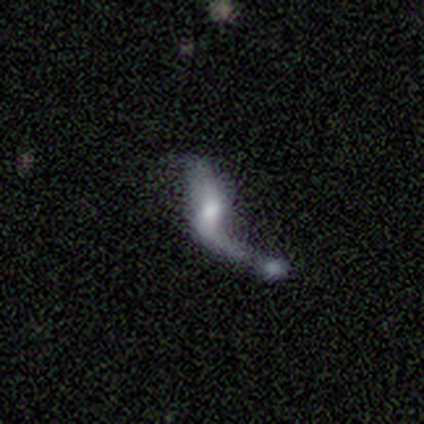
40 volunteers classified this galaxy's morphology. This is likely a featured or disk galaxy (65%). It is clearly not viewed edge-on (100%). Bar: possibly weak (46%, tied with no). Spiral arm pattern: likely yes (69%). Spiral arm count: clearly 2 (83%). Spiral winding: clearly loose (100%). Central bulge: possibly moderate (50%). Merging: possibly merger (57%).